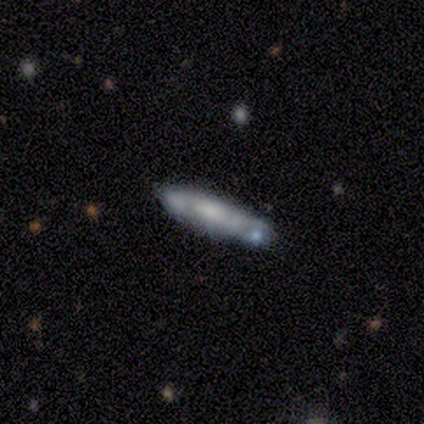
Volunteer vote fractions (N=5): Overall: featured or disk (80%). Edge-on disk: no (75%). Bar: no (67%; weak 33%). Spiral arms: yes (67%; no 33%). Spiral arm count: 2 (50%, tied with can't tell). Spiral winding: tight (100%). Bulge size: moderate (67%; none 33%). Merging: minor disturbance (60%; none 20%).